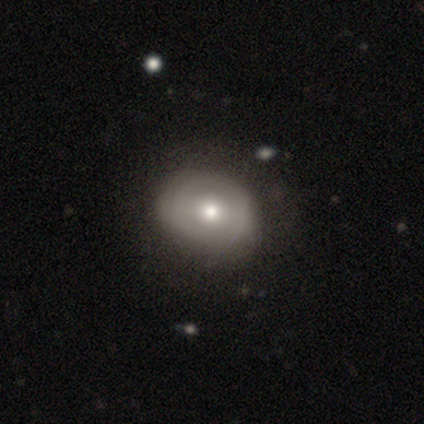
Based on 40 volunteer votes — This is possibly a featured or disk galaxy (57%). It is clearly not viewed edge-on (100%). Bar: possibly no (52%). Spiral arm pattern: clearly no (83%). Central bulge: likely moderate (65%). Merging: possibly none (56%).